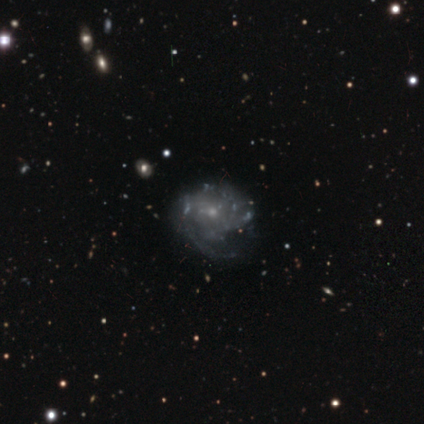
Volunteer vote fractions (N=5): Volunteers were most divided on "merging": none: 50%, minor disturbance: 25%, major disturbance: 25%, merger: 0%. More confident: edge-on disk — no (100%); bar — no (100%); smooth or featured — featured or disk (80%); spiral arms — yes (75%); bulge size — small (75%); spiral winding — loose (67%); spiral arm count — can't tell (67%).